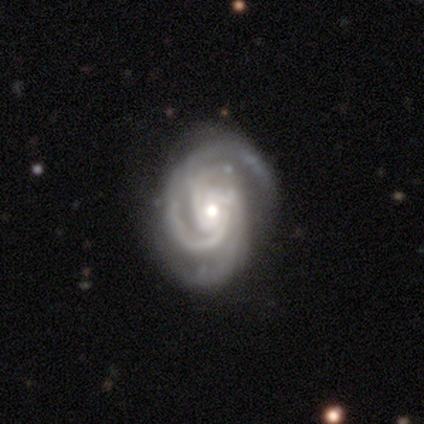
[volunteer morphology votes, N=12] Smooth or featured? featured or disk (83%)
Edge-on disk? no (100%)
Bar? no (90%)
Spiral arms? yes (100%)
Spiral winding? tight (60%)
Spiral arm count? 3 (50%)
Bulge size? moderate (70%)
Merging? none (73%)